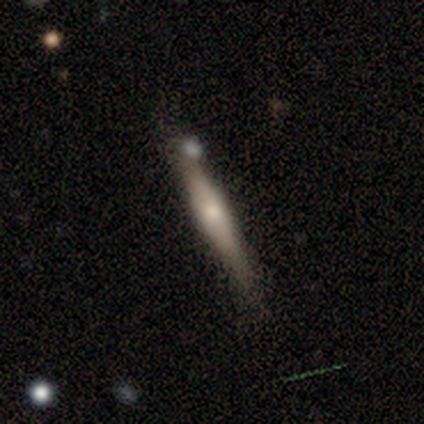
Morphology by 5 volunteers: Smooth or featured? smooth (80%)
How rounded? cigar-shaped (100%)
Merging? none (80%)